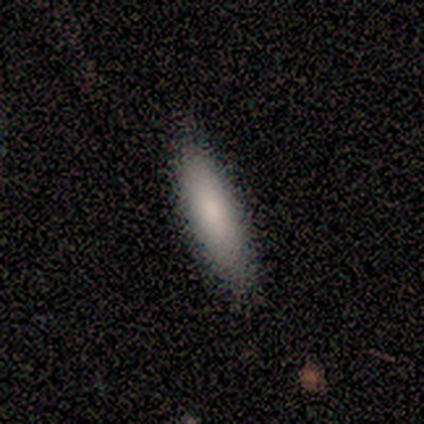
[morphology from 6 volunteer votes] A smooth galaxy with no disk features (100%) that is cigar-shaped (83%). Merging: none (100%).